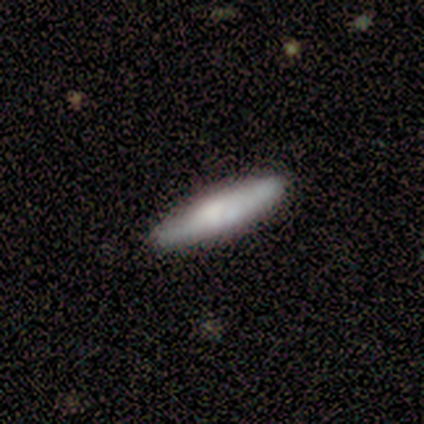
Overall: featured or disk (75%). Edge-on disk: yes (67%; no 33%). Edge-on bulge: rounded (100%). Merging: none (100%).